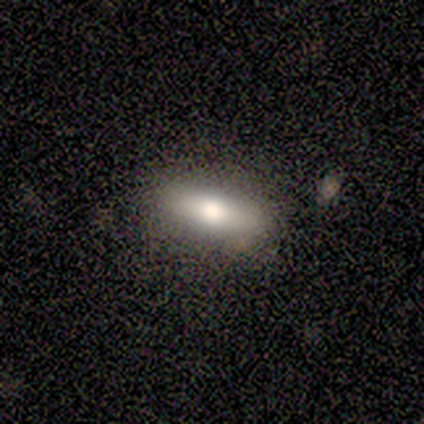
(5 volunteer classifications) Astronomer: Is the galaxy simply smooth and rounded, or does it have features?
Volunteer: featured or disk — 60% (runner-up: smooth, 40%).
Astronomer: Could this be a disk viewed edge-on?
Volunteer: yes — 67%.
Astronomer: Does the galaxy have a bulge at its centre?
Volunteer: rounded — 100%.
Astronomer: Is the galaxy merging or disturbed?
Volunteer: none — 100%.